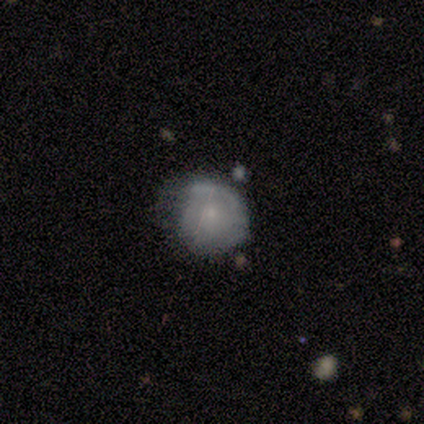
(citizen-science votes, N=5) This is likely a featured or disk galaxy (60%). It is clearly not viewed edge-on (100%). Bar: clearly no (100%). Spiral arm pattern: likely yes (67%). Spiral arm count: possibly 1 (50%, tied with can't tell). Spiral winding: possibly tight (50%, tied with medium). Central bulge: likely small (67%). Merging: marginally none (40%, tied with minor disturbance).